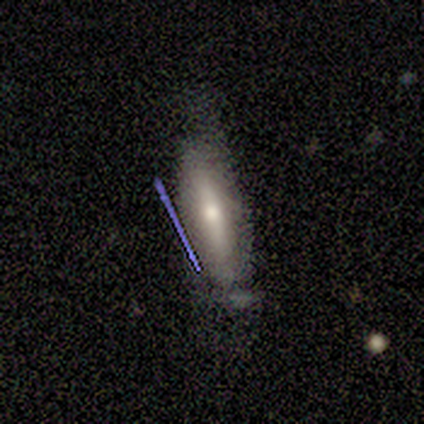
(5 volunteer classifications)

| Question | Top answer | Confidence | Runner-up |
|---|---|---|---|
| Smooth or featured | smooth | 60% | featured or disk (20%) |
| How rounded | in between | 100% | — |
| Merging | none | 75% | minor disturbance (25%) |